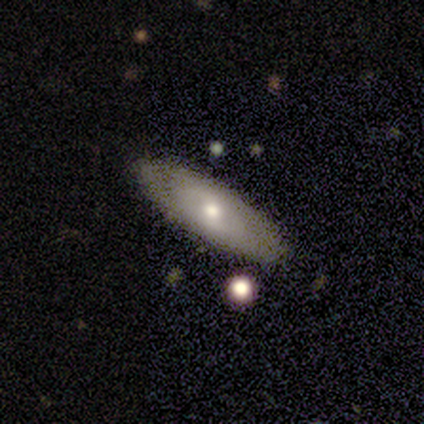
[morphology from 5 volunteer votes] Smooth or featured?
  - smooth: 60% *
  - featured or disk: 40%
  - star or artifact: 0%
How rounded?
  - in between: 67% *
  - cigar-shaped: 33%
  - round: 0%
Merging?
  - none: 100% *
  - minor disturbance: 0%
  - major disturbance: 0%
  - merger: 0%